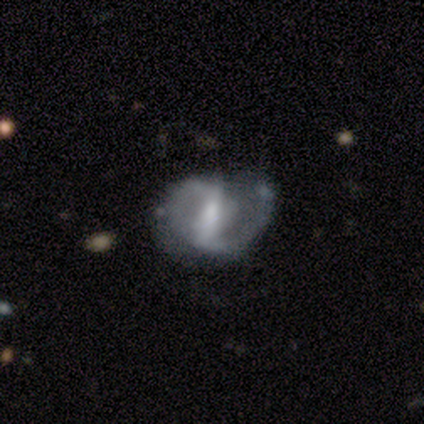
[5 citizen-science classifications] smooth-or-featured: featured or disk: 80% | star or artifact: 20% | smooth: 0%
  disk-edge-on: no: 100% | yes: 0%
    bar: strong: 50% (tied) | weak: 50% (tied) | no: 0%
    has-spiral-arms: yes: 75% | no: 25%
      spiral-winding: medium: 67% | loose: 33% | tight: 0%
      spiral-arm-count: 2: 100% | 1: 0% | 3: 0% | 4: 0% | more than 4: 0% | can't tell: 0%
    bulge-size: small: 50% | large: 25% | moderate: 25% | dominant: 0% | none: 0%
  merging: minor disturbance: 75% | major disturbance: 25% | none: 0% | merger: 0%